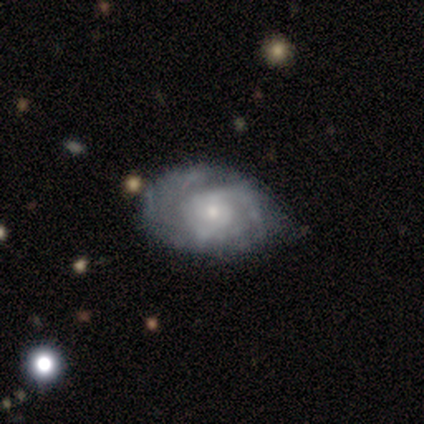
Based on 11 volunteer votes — Volunteers were most divided on "spiral arm count" (2-way tie): 2: 43%, can't tell: 43%, 3: 14%, 1: 0%, 4: 0%, more than 4: 0%. More confident: edge-on disk — no (100%); spiral arms — yes (100%); bar — no (86%); merging — none (70%); smooth or featured — featured or disk (64%); spiral winding — tight (57%); bulge size — small (57%).